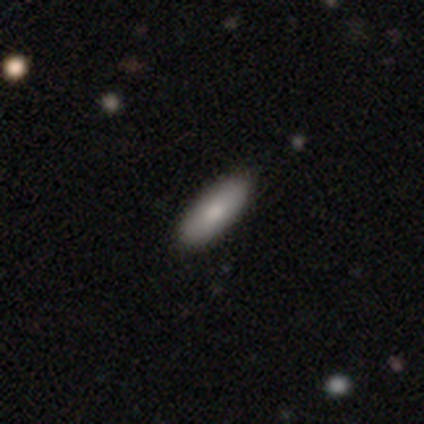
Volunteers were most divided on "smooth or featured": smooth: 75%, featured or disk: 25%, star or artifact: 0%. More confident: how rounded — in between (100%); merging — none (75%).